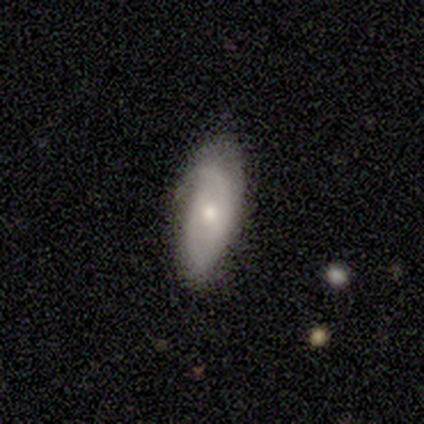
Volunteers were most divided on "spiral winding" (3-way tie): tight: 33%, medium: 33%, loose: 33%. More confident: smooth or featured — featured or disk (100%); edge-on disk — no (100%); spiral arms — yes (100%); merging — none (100%); bar — no (67%); spiral arm count — 2 (67%); bulge size — small (67%).